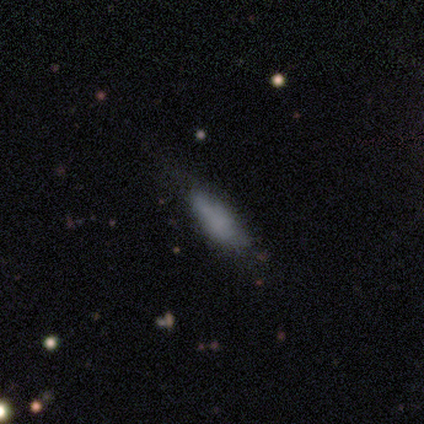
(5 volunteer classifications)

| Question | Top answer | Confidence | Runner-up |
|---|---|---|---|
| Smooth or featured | smooth | 80% | featured or disk (20%) |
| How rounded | cigar-shaped | 75% | in between (25%) |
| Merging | none | 80% | minor disturbance (20%) |